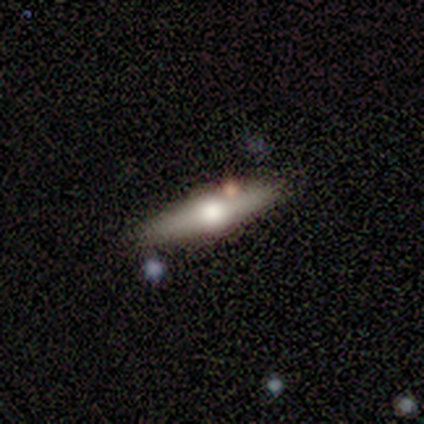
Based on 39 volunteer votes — Volunteers were most divided on "edge-on disk": yes: 80%, no: 20%. More confident: edge-on bulge — rounded (100%); merging — none (83%); smooth or featured — featured or disk (77%).